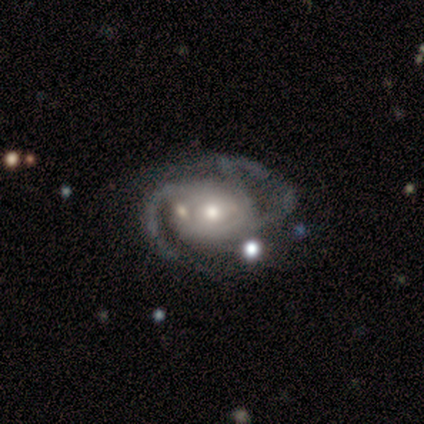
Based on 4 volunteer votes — smooth-or-featured: featured or disk: 100% | smooth: 0% | star or artifact: 0%
  disk-edge-on: no: 100% | yes: 0%
    bar: no: 50% | strong: 25% | weak: 25%
    has-spiral-arms: yes: 100% | no: 0%
      spiral-winding: tight: 75% | medium: 25% | loose: 0%
      spiral-arm-count: 2: 100% | 1: 0% | 3: 0% | 4: 0% | more than 4: 0% | can't tell: 0%
    bulge-size: moderate: 50% | small: 25% | none: 25% | dominant: 0% | large: 0%
  merging: none: 75% | minor disturbance: 25% | major disturbance: 0% | merger: 0%